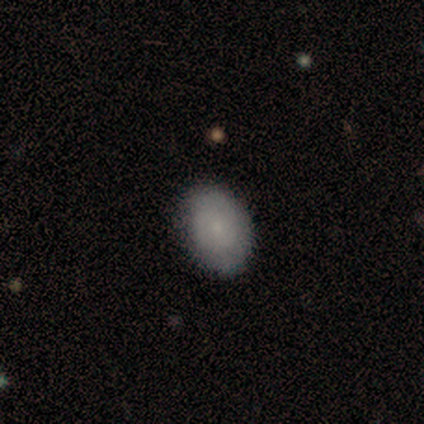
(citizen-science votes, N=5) Smooth or featured?
  - smooth: 80% *
  - star or artifact: 20%
  - featured or disk: 0%
How rounded?
  - in between: 75% *
  - round: 25%
  - cigar-shaped: 0%
Merging?
  - none: 100% *
  - minor disturbance: 0%
  - major disturbance: 0%
  - merger: 0%